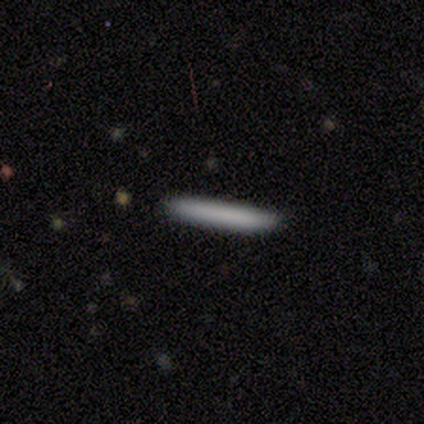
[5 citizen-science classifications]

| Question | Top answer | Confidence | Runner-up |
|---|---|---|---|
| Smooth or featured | smooth | 60% | featured or disk (40%) |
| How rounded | cigar-shaped | 100% | — |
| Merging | none | 100% | — |